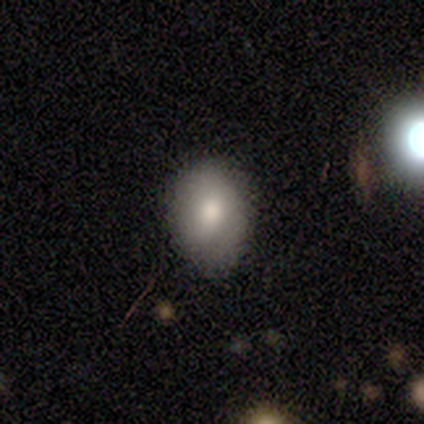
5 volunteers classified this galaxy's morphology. Volunteers were most divided on "smooth or featured": smooth: 60%, featured or disk: 40%, star or artifact: 0%. More confident: merging — none (80%); how rounded — round (67%).